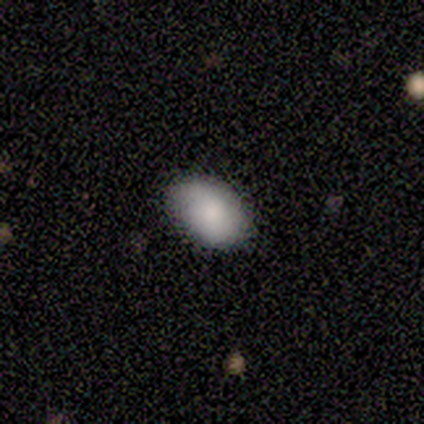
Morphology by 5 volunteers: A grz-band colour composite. It shows a smooth galaxy with no disk features (80%) that is in between round and cigar-shaped (100%). Merging: none (60%).